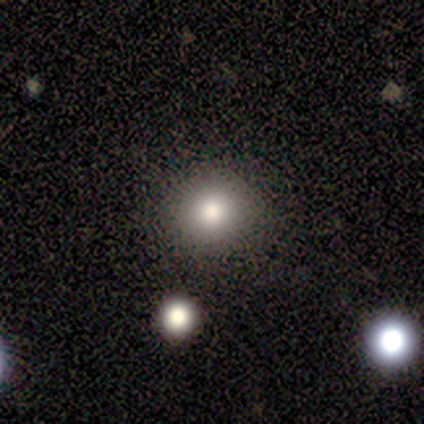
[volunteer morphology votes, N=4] A smooth galaxy with no disk features (100%) that is round (100%).

Vote fractions:
- Smooth or featured? smooth: 100% / featured or disk: 0% / star or artifact: 0%
- How rounded? round: 100% / in between: 0% / cigar-shaped: 0%
- Merging? none: 75% / major disturbance: 25% / minor disturbance: 0% / merger: 0%